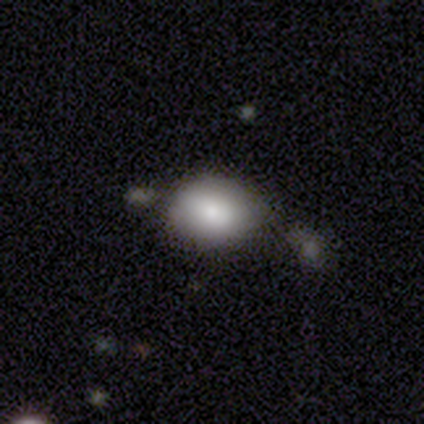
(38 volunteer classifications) Smooth or featured? 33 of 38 (87%) said smooth. How rounded? 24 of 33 (73%) said in between. Merging? 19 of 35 (54%) said none.